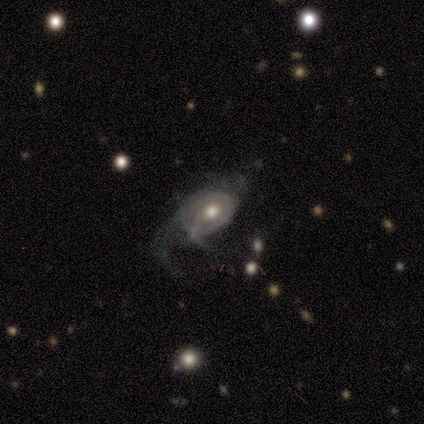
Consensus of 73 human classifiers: Overall: featured or disk (86%). Edge-on disk: no (100%). Bar: no (86%). Spiral arms: yes (78%). Spiral arm count: can't tell (53%; 2 22%). Spiral winding: tight (37%, tied with medium). Bulge size: moderate (83%). Merging: major disturbance (50%; none 24%).